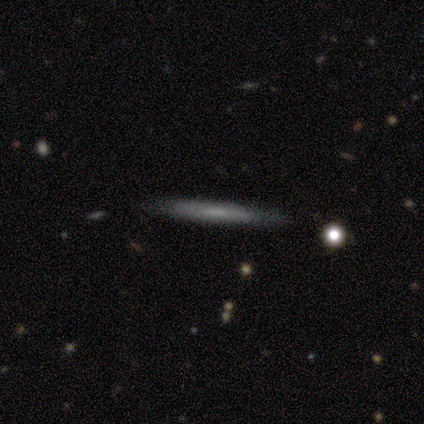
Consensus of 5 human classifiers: Smooth or featured? 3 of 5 (60%) said smooth. How rounded? 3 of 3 (100%) said cigar-shaped. Merging? 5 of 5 (100%) said none.